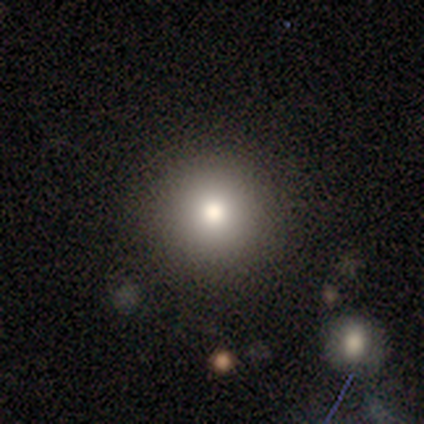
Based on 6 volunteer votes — A smooth galaxy with no disk features (67%) that is round (100%).

Vote fractions:
- Smooth or featured? smooth: 67% / star or artifact: 33% / featured or disk: 0%
- How rounded? round: 100% / in between: 0% / cigar-shaped: 0%
- Merging? none: 100% / minor disturbance: 0% / major disturbance: 0% / merger: 0%